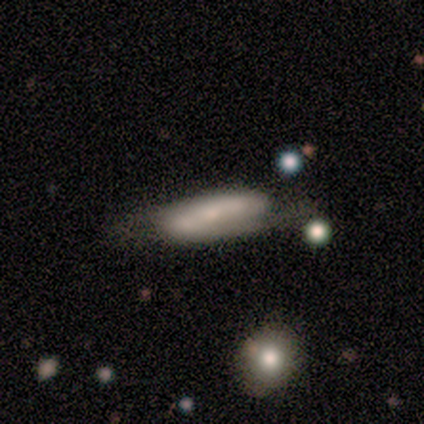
smooth_or_featured: featured or disk (p=0.60) [alt: smooth p=0.20]
disk_edge_on: no (p=0.67) [alt: yes p=0.33]
bar: strong (p=0.50) [tied with: weak p=0.50]
has_spiral_arms: yes (p=1.00)
spiral_winding: medium (p=0.50) [tied with: loose p=0.50]
spiral_arm_count: 2 (p=1.00)
bulge_size: small (p=1.00)
merging: none (p=1.00)